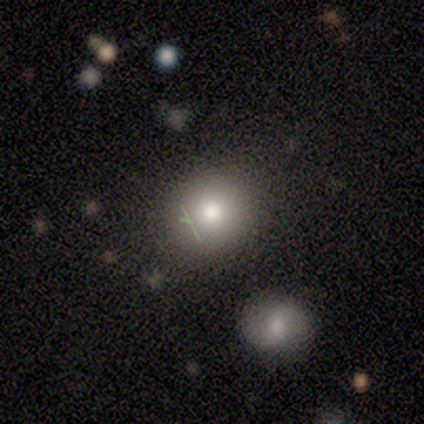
This appears to be a smooth galaxy with no disk features (100%) that is round (100%). Merging: merger (100%).